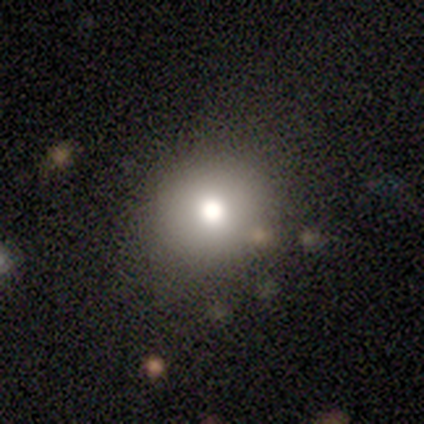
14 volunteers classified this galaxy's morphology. Overall: smooth (64%; star or artifact 36%). How rounded: round (78%). Merging: none (78%).